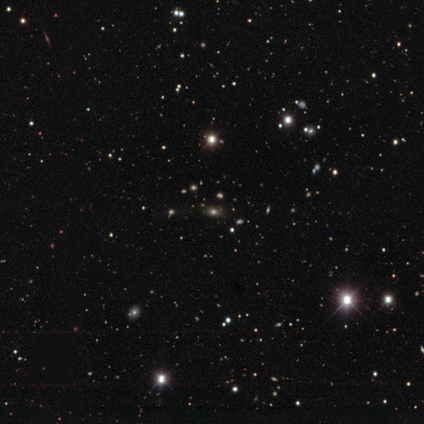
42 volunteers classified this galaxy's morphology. Volunteers were most divided on "smooth or featured": smooth: 45%, star or artifact: 40%, featured or disk: 14%. More confident: how rounded — in between (84%); merging — none (84%).